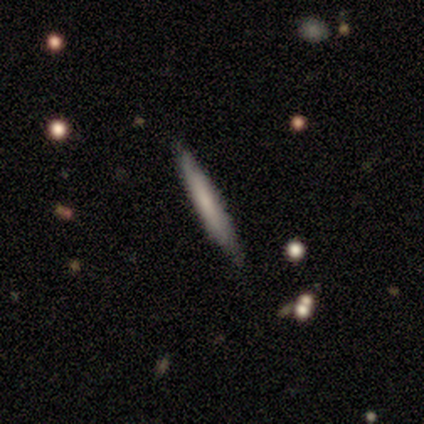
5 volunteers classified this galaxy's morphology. type=smooth (100%); roundness=cigar-shaped (100%); merging=none (80%).